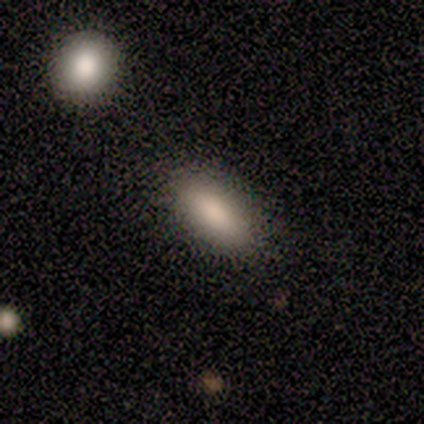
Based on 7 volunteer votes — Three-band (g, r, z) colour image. It shows a smooth galaxy with no disk features (86%) that is in between round and cigar-shaped (83%). Merging: none (86%).